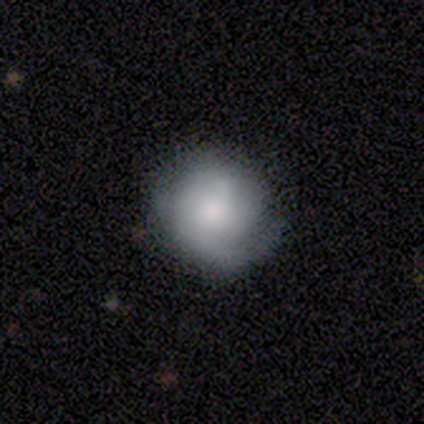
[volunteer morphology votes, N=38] A smooth galaxy with no disk features (47%, tied with featured or disk) that is round (89%).

Vote fractions:
- Smooth or featured? smooth: 47% (tied) / featured or disk: 47% (tied) / star or artifact: 5%
- How rounded? round: 89% / in between: 11% / cigar-shaped: 0%
- Merging? none: 69% / minor disturbance: 28% / major disturbance: 3% / merger: 0%